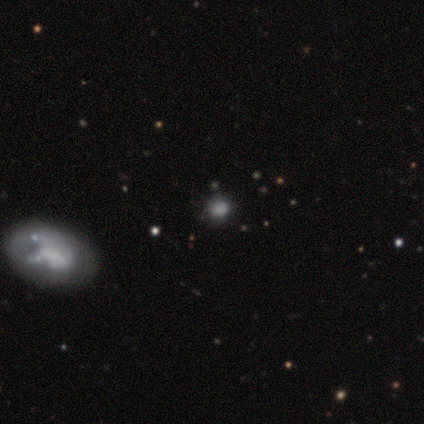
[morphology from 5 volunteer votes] type=smooth (80%); roundness=round (75%); merging=none (100%).